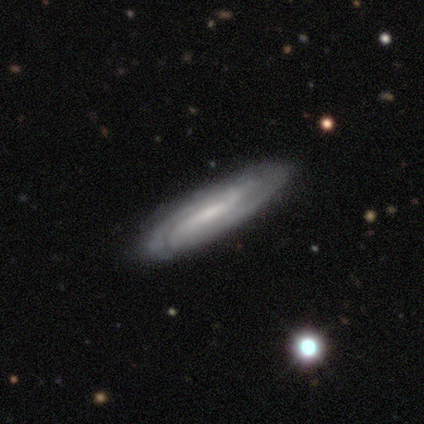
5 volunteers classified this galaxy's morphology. Overall: smooth (40%, tied with featured or disk). How rounded: in between (50%, tied with cigar-shaped). Merging: none (50%, tied with minor disturbance).